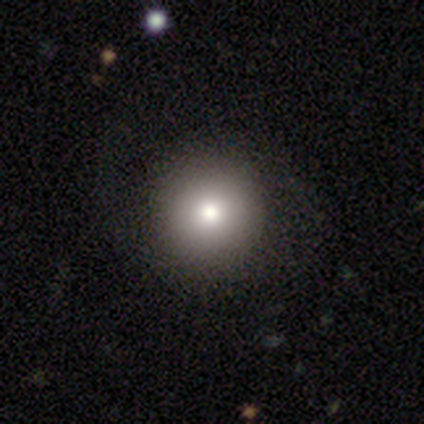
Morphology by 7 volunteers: Overall: featured or disk (43%; smooth 29%). Edge-on disk: no (100%). Bar: no (100%). Spiral arms: no (67%; yes 33%). Bulge size: large (67%; dominant 33%). Merging: none (100%).